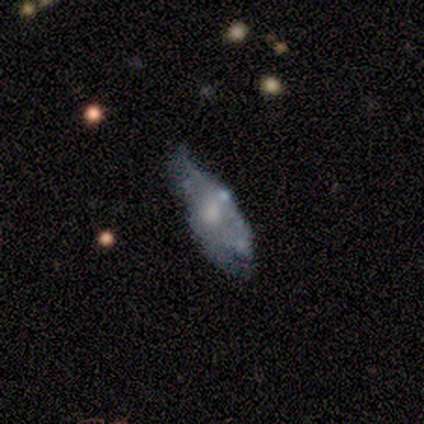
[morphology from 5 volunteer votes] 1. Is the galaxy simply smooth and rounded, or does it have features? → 60% featured or disk, 20% smooth, 20% star or artifact.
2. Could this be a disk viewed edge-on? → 67% no, 33% yes.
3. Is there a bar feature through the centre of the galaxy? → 100% no, 0% strong, 0% weak.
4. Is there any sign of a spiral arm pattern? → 50% yes (tied), 50% no (tied).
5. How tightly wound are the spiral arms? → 100% tight, 0% medium, 0% loose.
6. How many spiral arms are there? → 100% can't tell, 0% 1, 0% 2, 0% 3, 0% 4, 0% more than 4.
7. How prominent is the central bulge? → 50% small (tied), 50% none (tied), 0% dominant, 0% large, 0% moderate.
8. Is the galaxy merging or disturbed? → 50% major disturbance, 25% none, 25% minor disturbance, 0% merger.